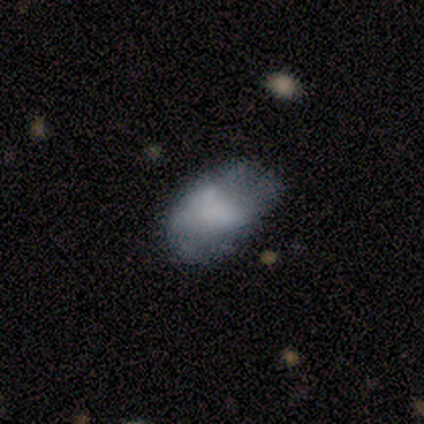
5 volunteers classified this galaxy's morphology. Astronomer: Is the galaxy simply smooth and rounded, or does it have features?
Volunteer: smooth — 80%.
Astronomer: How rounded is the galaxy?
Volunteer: in between — 75%.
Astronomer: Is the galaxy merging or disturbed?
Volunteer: minor disturbance — 75%.